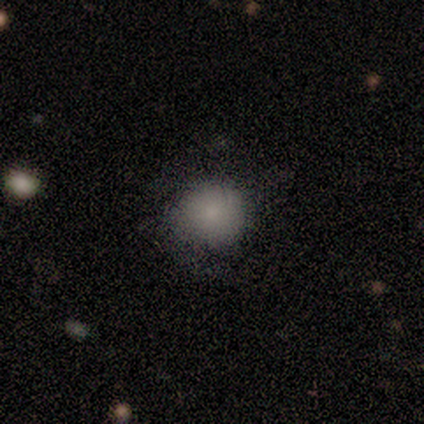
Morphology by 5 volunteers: type=smooth (100%); roundness=round (100%); merging=none (100%).